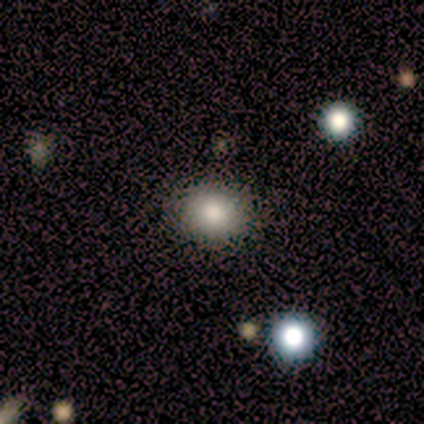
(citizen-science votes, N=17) Smooth or featured?
  - smooth: 82% *
  - featured or disk: 12%
  - star or artifact: 6%
How rounded?
  - round: 79% *
  - in between: 21%
  - cigar-shaped: 0%
Merging?
  - none: 88% *
  - minor disturbance: 6%
  - merger: 6%
  - major disturbance: 0%